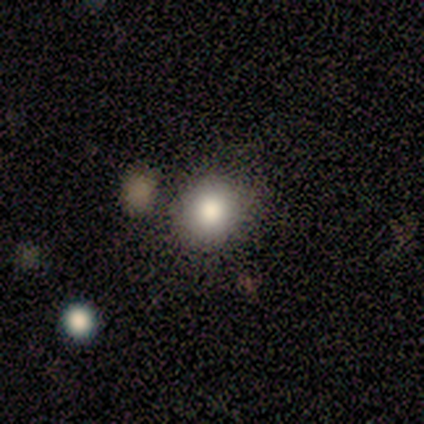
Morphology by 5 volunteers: Smooth or featured?
  - smooth: 100% *
  - featured or disk: 0%
  - star or artifact: 0%
How rounded?
  - round: 80% *
  - in between: 20%
  - cigar-shaped: 0%
Merging?
  - none: 80% *
  - merger: 20%
  - minor disturbance: 0%
  - major disturbance: 0%